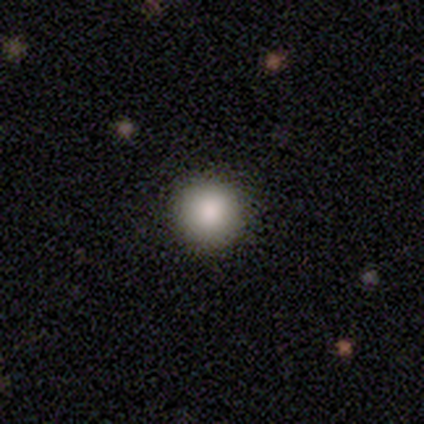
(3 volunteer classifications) smooth_or_featured: smooth (p=1.00)
how_rounded: round (p=1.00)
merging: none (p=1.00)